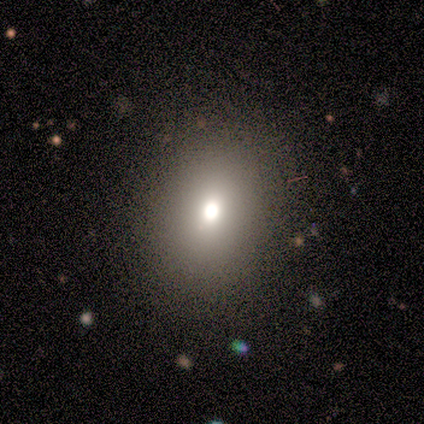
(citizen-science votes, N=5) Smooth or featured: smooth — 80% (star or artifact — 20%)
How rounded: round — 100%
Merging: none — 100%